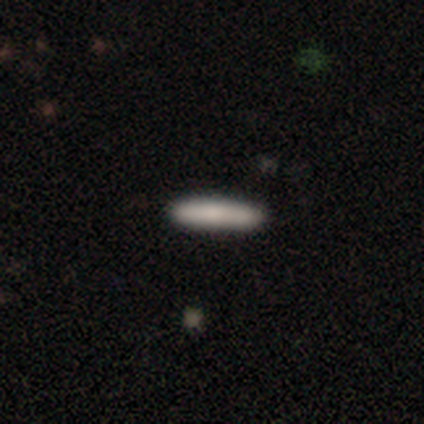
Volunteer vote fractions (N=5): This is likely a smooth galaxy (60%). How rounded: likely cigar-shaped (67%). Merging: clearly none (100%).